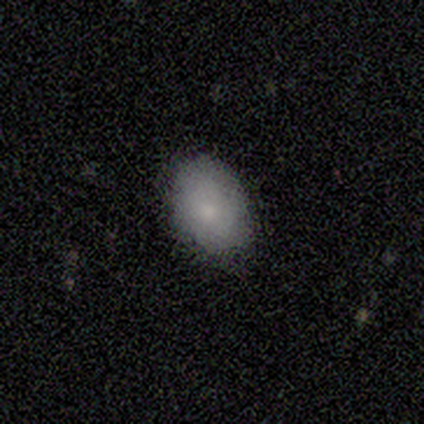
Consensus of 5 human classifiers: A smooth galaxy with no disk features (60%) that is in between round and cigar-shaped (67%). Merging: none (80%).